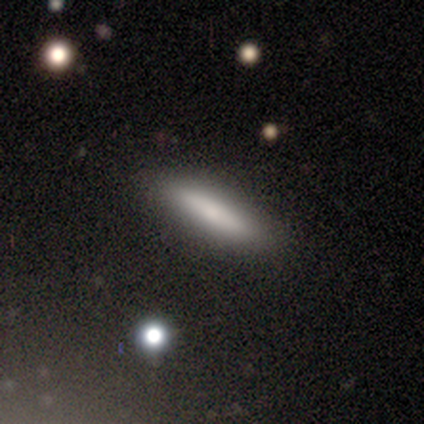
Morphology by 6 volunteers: This is clearly a smooth galaxy (83%). How rounded: clearly cigar-shaped (80%). Merging: clearly none (100%).